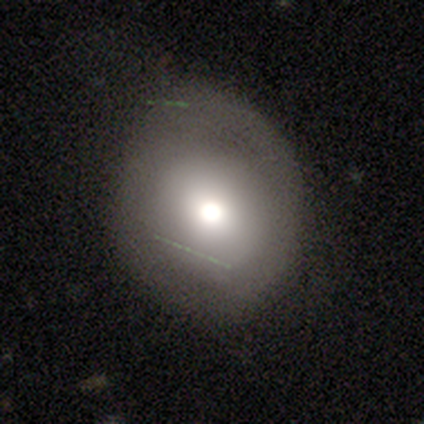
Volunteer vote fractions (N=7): This appears to be a smooth galaxy with no disk features (57%) that is round (100%). Merging: none (50%, tied with minor disturbance).